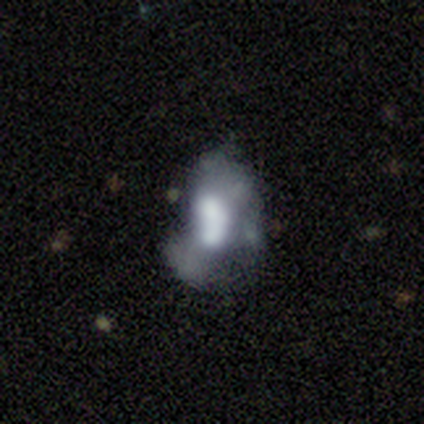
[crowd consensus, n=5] smooth_or_featured: smooth (p=0.60) [alt: featured or disk p=0.40]
how_rounded: in between (p=1.00)
merging: merger (p=0.40) [alt: none p=0.20]